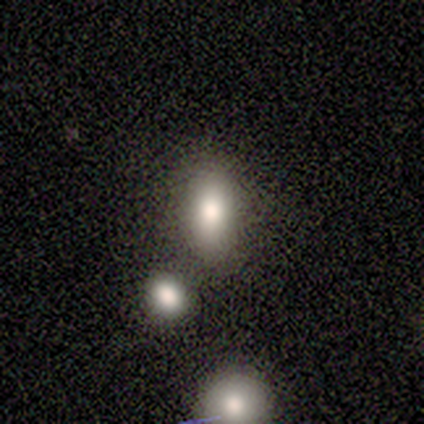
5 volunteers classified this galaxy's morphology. A smooth galaxy with no disk features (80%) that is in between round and cigar-shaped (75%).

Vote fractions:
- Smooth or featured? smooth: 80% / featured or disk: 20% / star or artifact: 0%
- How rounded? in between: 75% / cigar-shaped: 25% / round: 0%
- Merging? none: 60% / minor disturbance: 20% / merger: 20% / major disturbance: 0%